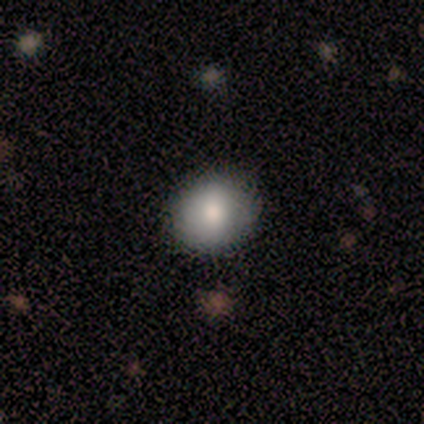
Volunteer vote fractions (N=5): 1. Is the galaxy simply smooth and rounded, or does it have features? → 80% smooth, 20% star or artifact, 0% featured or disk.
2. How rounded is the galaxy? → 50% round (tied), 50% in between (tied), 0% cigar-shaped.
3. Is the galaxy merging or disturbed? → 100% none, 0% minor disturbance, 0% major disturbance, 0% merger.